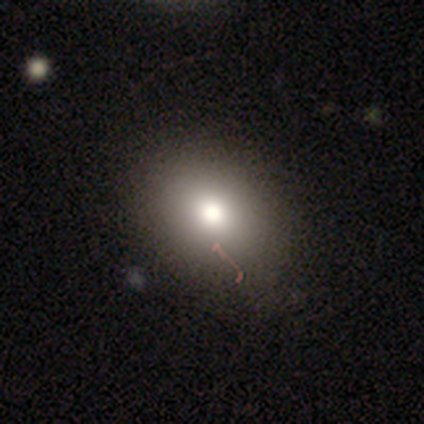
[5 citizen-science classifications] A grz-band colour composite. It shows a smooth galaxy with no disk features (60%) that is in between round and cigar-shaped (67%). Merging: none (50%).